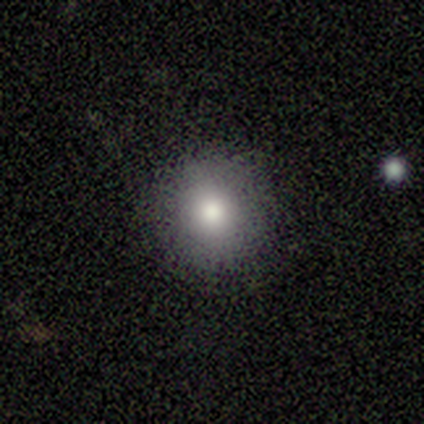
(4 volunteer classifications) Smooth or featured?
  - smooth: 75% *
  - featured or disk: 25%
  - star or artifact: 0%
How rounded?
  - round: 100% *
  - in between: 0%
  - cigar-shaped: 0%
Merging?
  - none: 100% *
  - minor disturbance: 0%
  - major disturbance: 0%
  - merger: 0%